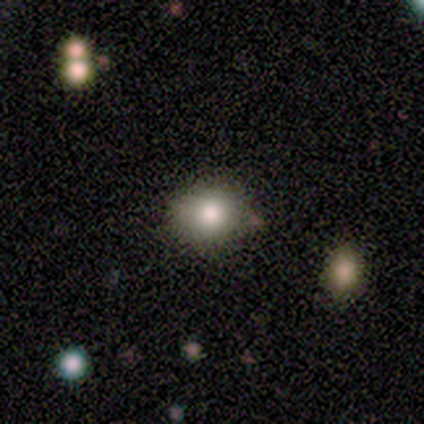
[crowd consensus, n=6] This appears to be a smooth galaxy with no disk features (83%) that is round (80%). Merging: none (80%).